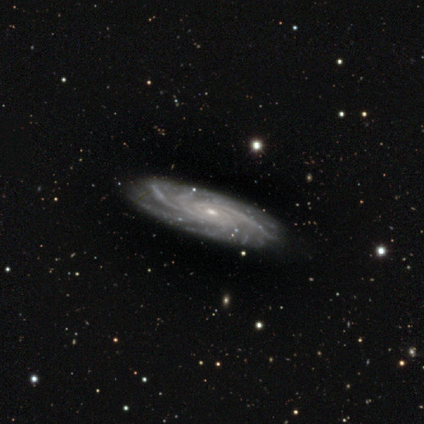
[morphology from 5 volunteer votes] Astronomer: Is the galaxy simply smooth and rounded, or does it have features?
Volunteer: featured or disk — 100%.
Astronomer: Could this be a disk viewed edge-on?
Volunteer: no — 100%.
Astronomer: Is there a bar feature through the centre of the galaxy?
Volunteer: no — 60% (runner-up: weak, 40%).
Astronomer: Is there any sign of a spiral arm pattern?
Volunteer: yes — 100%.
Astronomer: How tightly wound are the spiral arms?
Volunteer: medium — 60% (runner-up: tight, 40%).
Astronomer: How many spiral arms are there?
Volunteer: more than 4 — 40% (runner-up: 3, 20%).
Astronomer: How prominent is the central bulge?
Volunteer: small — 60% (runner-up: moderate, 40%).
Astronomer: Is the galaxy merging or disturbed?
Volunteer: none — 100%.